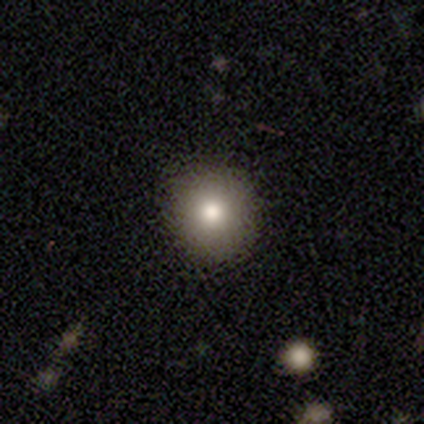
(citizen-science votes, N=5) smooth-or-featured: smooth: 80% | star or artifact: 20% | featured or disk: 0%
  how-rounded: round: 75% | in between: 25% | cigar-shaped: 0%
  merging: none: 75% | minor disturbance: 25% | major disturbance: 0% | merger: 0%